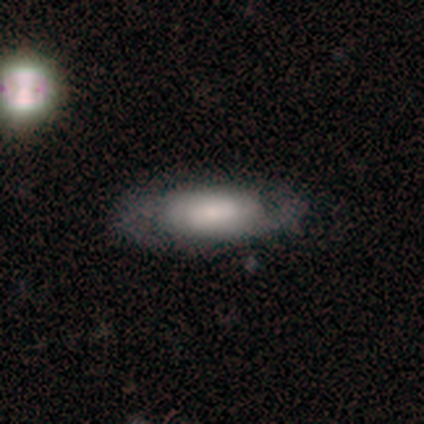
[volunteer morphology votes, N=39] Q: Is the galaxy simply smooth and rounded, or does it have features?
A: featured or disk — 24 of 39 (62%).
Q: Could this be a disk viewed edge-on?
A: no — 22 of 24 (92%).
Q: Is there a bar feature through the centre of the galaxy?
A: no — 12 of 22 (55%).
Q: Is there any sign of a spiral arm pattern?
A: yes — 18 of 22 (82%).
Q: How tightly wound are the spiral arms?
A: medium — 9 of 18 (50%).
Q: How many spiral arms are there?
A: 2 — 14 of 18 (78%).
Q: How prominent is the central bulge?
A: small — 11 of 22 (50%).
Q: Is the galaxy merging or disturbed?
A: none — 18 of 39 (46%).